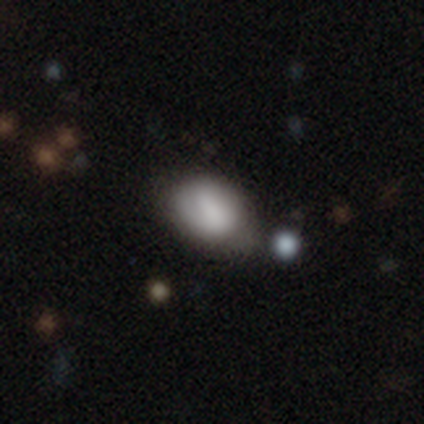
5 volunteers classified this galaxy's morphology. Q: Smooth or featured?
A: smooth (80%); runner-up: star or artifact (20%)
Q: How rounded?
A: in between (75%); runner-up: round (25%)
Q: Merging?
A: none (50%); tied with: minor disturbance (50%)